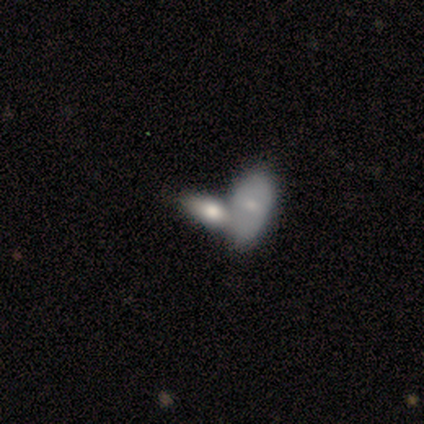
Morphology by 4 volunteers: Overall: smooth (75%). How rounded: in between (100%). Merging: none (33%, tied with major disturbance and merger).